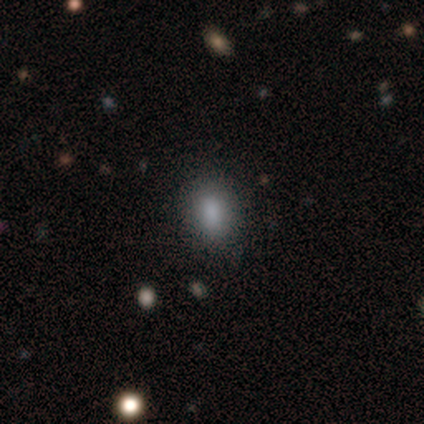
Overall: smooth (80%). How rounded: in between (100%). Merging: none (75%).